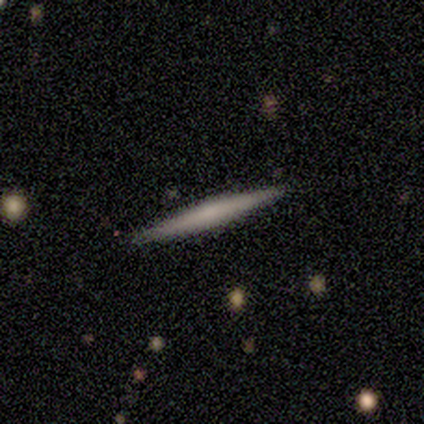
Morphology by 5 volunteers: smooth-or-featured: smooth: 100% | featured or disk: 0% | star or artifact: 0%
  how-rounded: cigar-shaped: 100% | round: 0% | in between: 0%
  merging: none: 80% | minor disturbance: 20% | major disturbance: 0% | merger: 0%